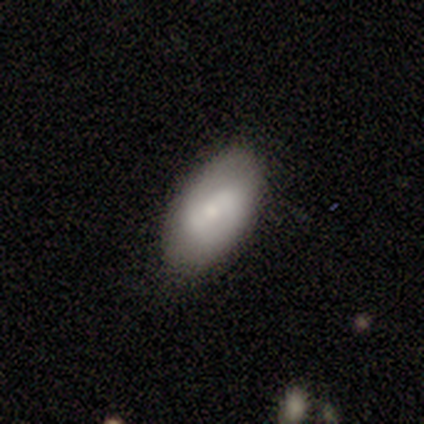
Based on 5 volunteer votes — Volunteers were most divided on "how rounded": in between: 75%, round: 25%, cigar-shaped: 0%. More confident: merging — none (100%); smooth or featured — smooth (80%).